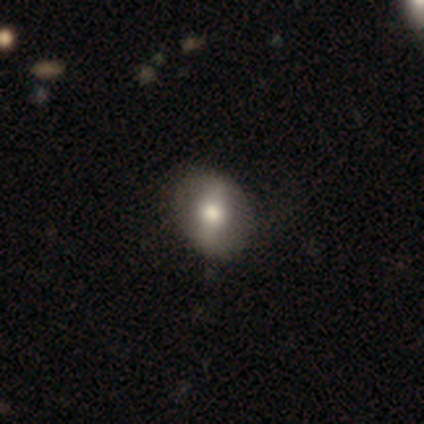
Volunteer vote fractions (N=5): This appears to be a featured or disk galaxy (60%) with a strong bar (50%, tied with weak), tight (100%) spiral arms (100%) and a large central bulge (50%, tied with moderate). Merging: none (100%).